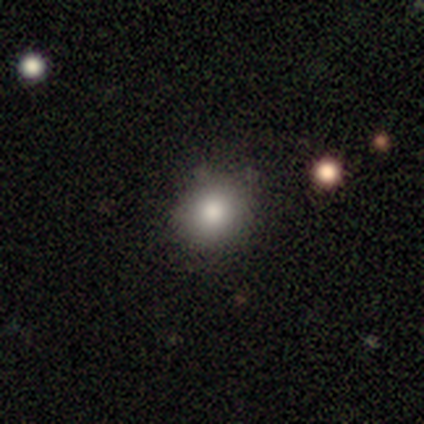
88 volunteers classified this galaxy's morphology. This appears to be a smooth galaxy with no disk features (80%) that is round (93%). Merging: none (87%).